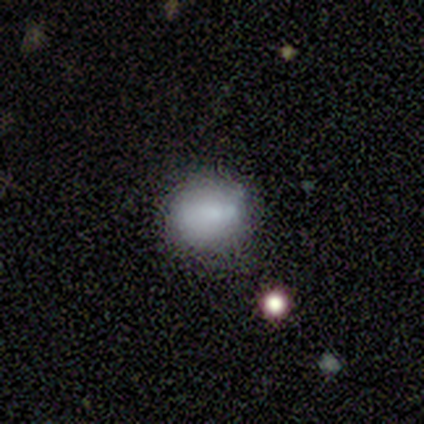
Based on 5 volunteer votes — Smooth or featured: smooth — 80% (featured or disk — 20%)
How rounded: round — 75% (in between — 25%)
Merging: none — 80% (minor disturbance — 20%)